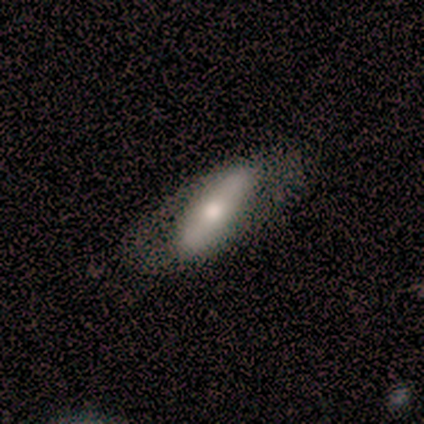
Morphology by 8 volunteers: Q: Smooth or featured?
A: smooth (62%); runner-up: featured or disk (38%)
Q: How rounded?
A: in between (80%); runner-up: cigar-shaped (20%)
Q: Merging?
A: none (50%); runner-up: minor disturbance (25%)